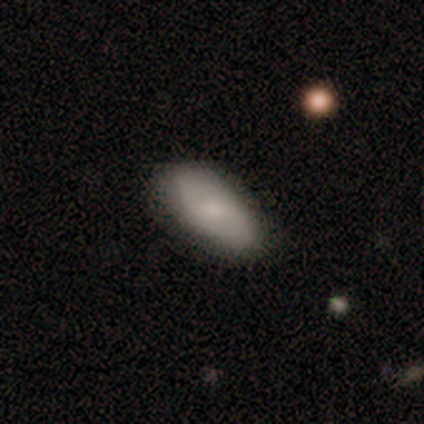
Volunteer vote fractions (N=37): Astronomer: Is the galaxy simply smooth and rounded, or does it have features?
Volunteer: smooth — 62%.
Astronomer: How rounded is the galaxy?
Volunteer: in between — 83%.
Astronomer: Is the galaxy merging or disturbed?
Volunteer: none — 80%.